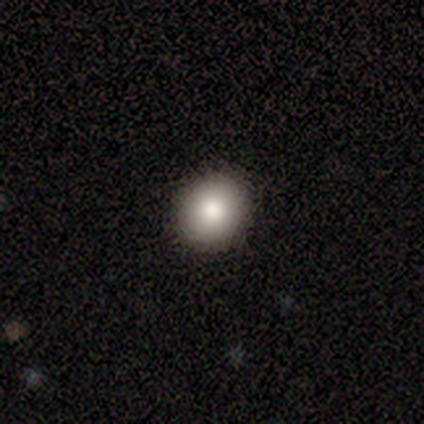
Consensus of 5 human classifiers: Morphology: type=smooth (80%); roundness=round (100%); merging=none (100%).